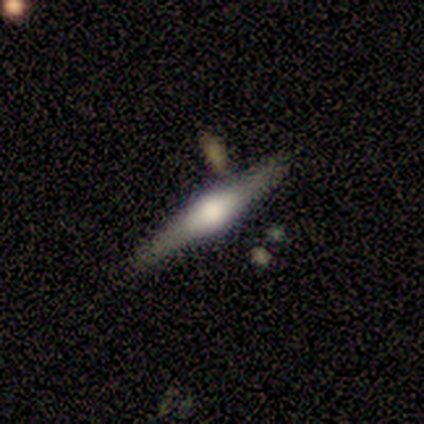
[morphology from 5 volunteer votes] Smooth or featured? featured or disk (80%)
Edge-on disk? yes (100%)
Edge-on bulge? rounded (100%)
Merging? none (60%)